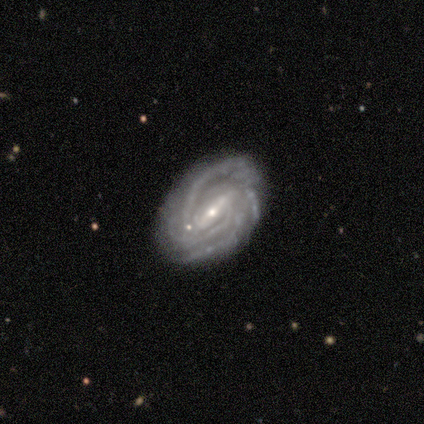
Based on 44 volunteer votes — A featured or disk galaxy (89%) with a strong bar (75%), 4 (31%) tight (78%) spiral arms (100%) and a small central bulge (75%).

Vote fractions:
- Smooth or featured? featured or disk: 89% / smooth: 7% / star or artifact: 5%
- Edge-on disk? no: 92% / yes: 8%
- Bar? strong: 75% / weak: 19% / no: 6%
- Spiral arms? yes: 100% / no: 0%
- Spiral winding? tight: 78% / medium: 22% / loose: 0%
- Spiral arm count? 4: 31% / 3: 25% / can't tell: 25% / more than 4: 11% / 2: 8% / 1: 0%
- Bulge size? small: 75% / moderate: 25% / dominant: 0% / large: 0% / none: 0%
- Merging? none: 67% / minor disturbance: 19% / merger: 10% / major disturbance: 5%